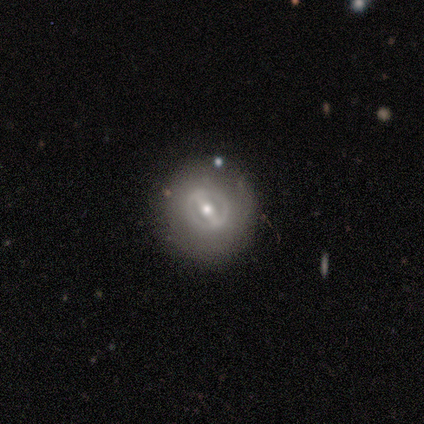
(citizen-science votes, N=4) Smooth or featured? featured or disk (100%)
Edge-on disk? no (100%)
Bar? no (75%)
Spiral arms? no (100%)
Bulge size? moderate (50%, tied with small)
Merging? none (75%)